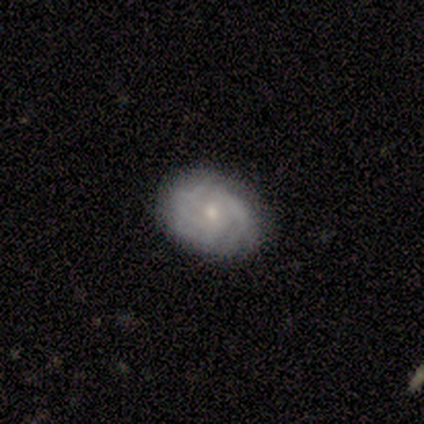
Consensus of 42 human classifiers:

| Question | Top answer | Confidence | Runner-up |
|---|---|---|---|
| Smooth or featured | featured or disk | 60% | smooth (31%) |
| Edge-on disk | no | 100% | — |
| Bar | no | 88% | weak (12%) |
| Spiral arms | yes | 84% | no (16%) |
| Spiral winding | tight | 81% | medium (19%) |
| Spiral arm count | can't tell | 48% | 3 (19%) |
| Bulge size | moderate | 48% | small (44%) |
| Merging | none | 82% | minor disturbance (16%) |